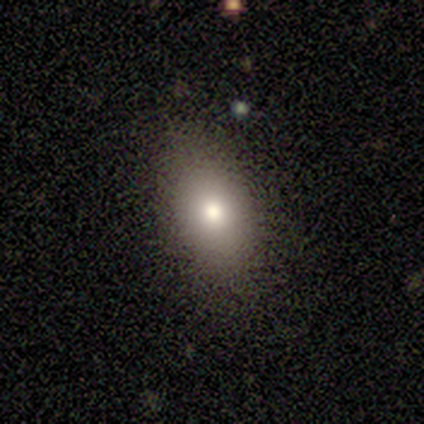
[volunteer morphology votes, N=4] smooth 100%, featured or disk 0%, star or artifact 0%. Down the decision tree: how rounded — in between (100%); merging — none (100%).